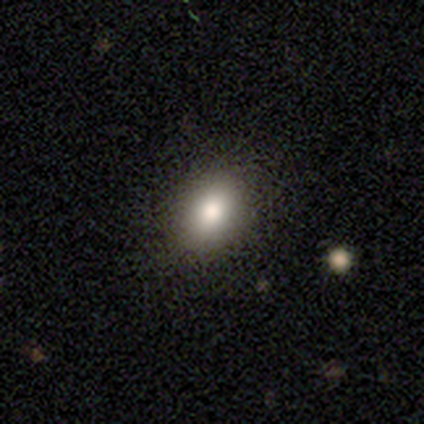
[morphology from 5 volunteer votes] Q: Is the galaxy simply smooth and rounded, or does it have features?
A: smooth — 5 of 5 (100%).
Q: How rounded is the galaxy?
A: in between — 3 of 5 (60%).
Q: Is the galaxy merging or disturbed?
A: none — 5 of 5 (100%).